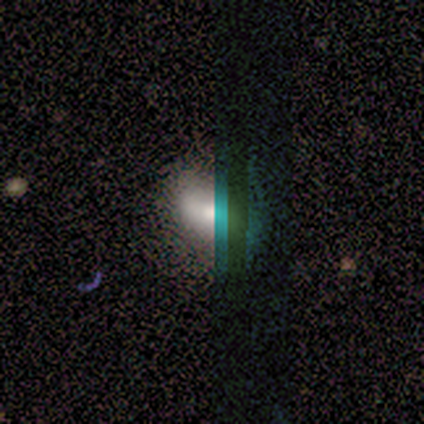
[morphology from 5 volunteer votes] A smooth galaxy with no disk features (40%, tied with star or artifact) that is round (50%, tied with in between). Merging: none (67%).